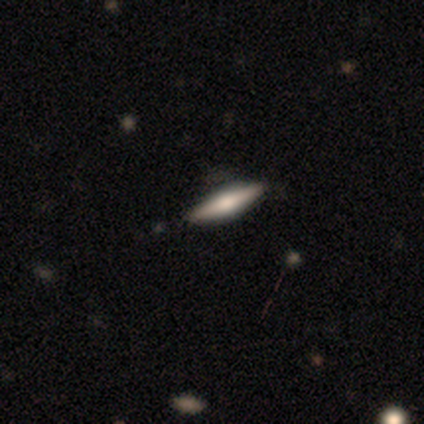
Volunteers were most divided on "smooth or featured": smooth: 50%, featured or disk: 25%, star or artifact: 25%. More confident: how rounded — cigar-shaped (100%); merging — none (100%).